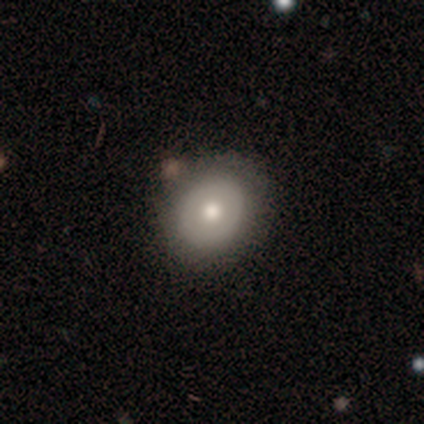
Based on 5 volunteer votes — Q: Smooth or featured?
A: featured or disk (80%); runner-up: smooth (20%)
Q: Edge-on disk?
A: no (100%)
Q: Bar?
A: no (100%)
Q: Spiral arms?
A: no (100%)
Q: Bulge size?
A: small (75%); runner-up: moderate (25%)
Q: Merging?
A: none (80%); runner-up: minor disturbance (20%)